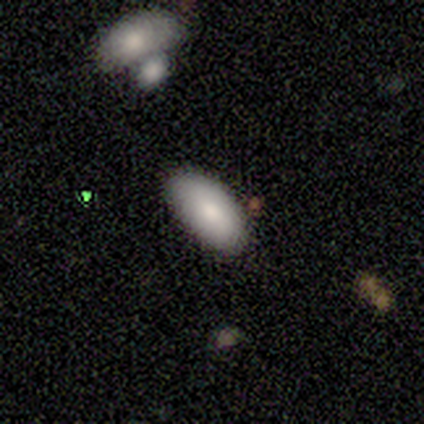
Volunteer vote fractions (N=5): Smooth or featured? 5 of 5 (100%) said smooth. How rounded? 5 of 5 (100%) said in between. Merging? 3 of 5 (60%) said none.